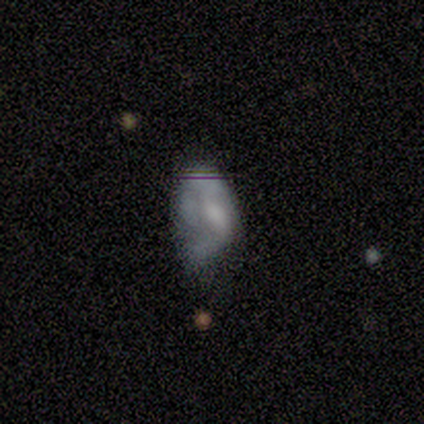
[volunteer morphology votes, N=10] smooth-or-featured: featured or disk: 70% | smooth: 30% | star or artifact: 0%
  disk-edge-on: no: 100% | yes: 0%
    bar: no: 86% | weak: 14% | strong: 0%
    has-spiral-arms: no: 71% | yes: 29%
    bulge-size: none: 71% | moderate: 29% | dominant: 0% | large: 0% | small: 0%
  merging: minor disturbance: 50% | none: 30% | major disturbance: 10% | merger: 10%